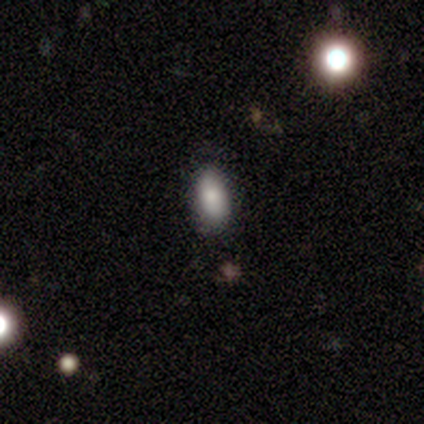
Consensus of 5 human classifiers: smooth_or_featured: smooth (p=0.80) [alt: featured or disk p=0.20]
how_rounded: in between (p=1.00)
merging: none (p=0.80) [alt: minor disturbance p=0.20]